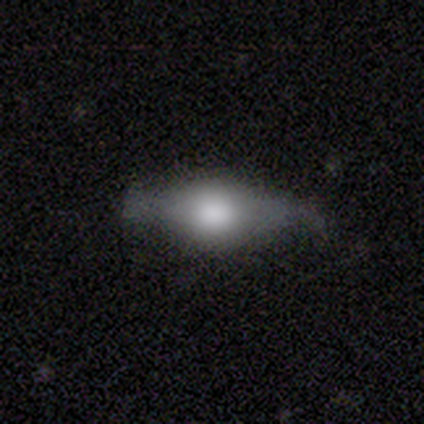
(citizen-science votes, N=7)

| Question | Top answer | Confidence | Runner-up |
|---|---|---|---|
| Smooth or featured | featured or disk | 57% | smooth (43%) |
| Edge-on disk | yes | 75% | no (25%) |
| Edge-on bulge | rounded | 100% | — |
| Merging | none | 71% | minor disturbance (14%) |